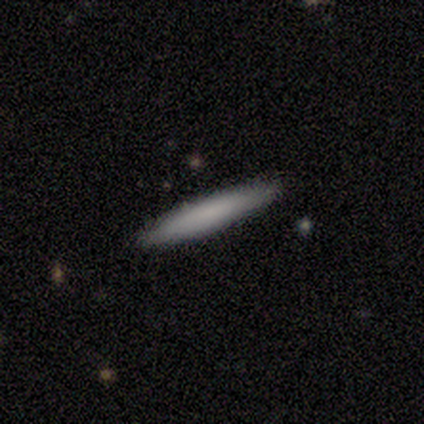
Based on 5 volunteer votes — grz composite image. It shows a smooth galaxy with no disk features (100%) that is cigar-shaped (100%). Merging: none (100%).